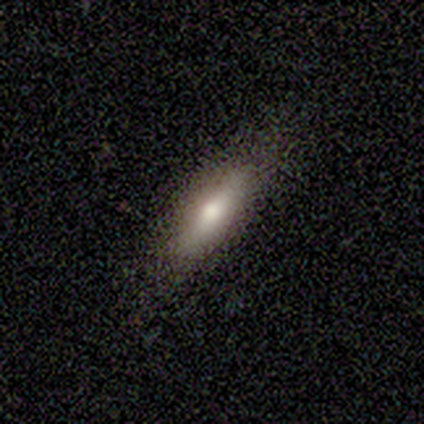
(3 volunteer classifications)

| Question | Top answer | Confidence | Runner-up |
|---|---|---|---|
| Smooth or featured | smooth | 67% | featured or disk (33%) |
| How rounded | in between | 50% | tied: cigar-shaped (50%) |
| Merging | none | 100% | — |